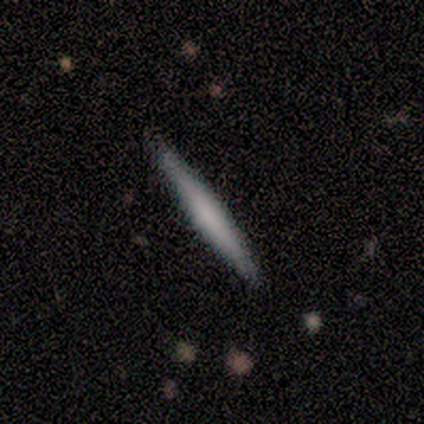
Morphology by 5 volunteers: Smooth or featured? featured or disk (60%)
Edge-on disk? yes (100%)
Edge-on bulge? boxy (33%, tied with none and rounded)
Merging? none (100%)